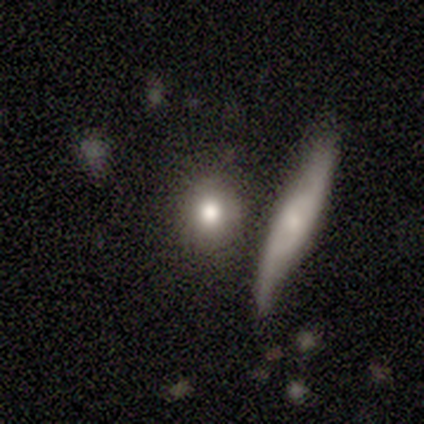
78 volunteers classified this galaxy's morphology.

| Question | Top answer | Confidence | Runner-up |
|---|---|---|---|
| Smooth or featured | smooth | 67% | star or artifact (18%) |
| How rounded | round | 85% | in between (12%) |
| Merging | none | 39% | merger (33%) |